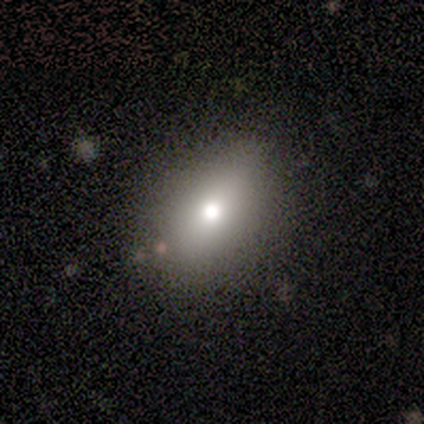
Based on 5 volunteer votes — Smooth or featured? smooth (80%)
How rounded? round (75%)
Merging? none (60%)